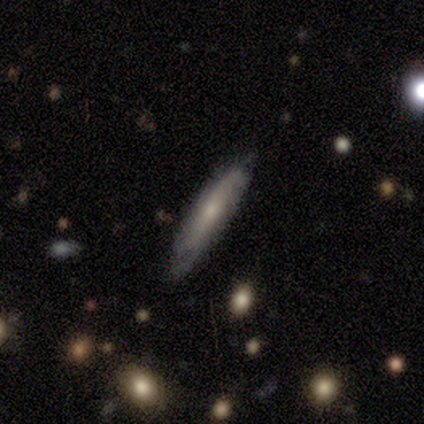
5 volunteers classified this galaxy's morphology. Smooth or featured? 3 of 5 (60%) said featured or disk. Edge-on disk? 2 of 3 (67%) said no. Bar? 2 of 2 (100%) said no. Spiral arms? 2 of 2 (100%) said yes. Spiral winding? 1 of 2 (50%, tied with medium) said tight. Spiral arm count? 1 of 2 (50%, tied with can't tell) said 2. Bulge size? 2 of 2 (100%) said small. Merging? 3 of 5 (60%) said minor disturbance.